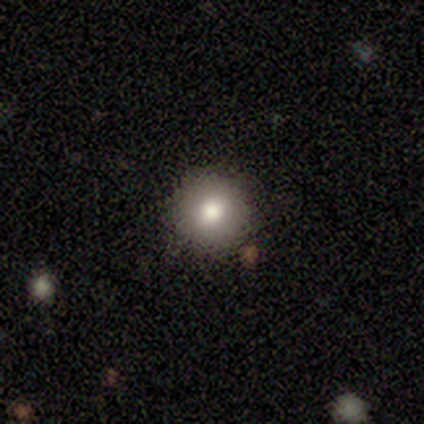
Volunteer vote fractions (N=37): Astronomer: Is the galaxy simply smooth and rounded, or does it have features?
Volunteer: smooth — 78%.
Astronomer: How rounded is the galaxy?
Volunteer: round — 90%.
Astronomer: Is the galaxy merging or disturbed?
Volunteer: none — 88%.